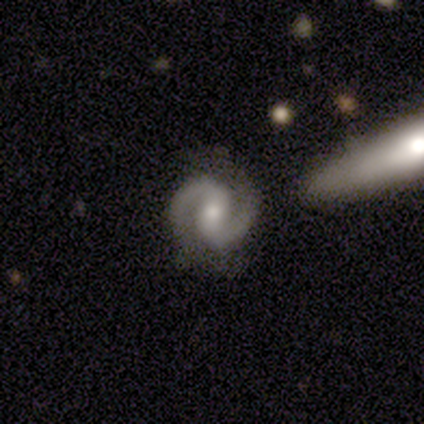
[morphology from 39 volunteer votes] Smooth or featured?
  - featured or disk: 97% *
  - star or artifact: 3%
  - smooth: 0%
Edge-on disk?
  - no: 97% *
  - yes: 3%
Bar?
  - weak: 38% *
  - strong: 32%
  - no: 30%
Spiral arms?
  - yes: 100% *
  - no: 0%
Spiral winding?
  - medium: 49% *
  - tight: 41%
  - loose: 11%
Spiral arm count?
  - 2: 100% *
  - 1: 0%
  - 3: 0%
  - 4: 0%
  - more than 4: 0%
  - can't tell: 0%
Bulge size?
  - small: 54% *
  - moderate: 38%
  - dominant: 3%
  - large: 3%
  - none: 3%
Merging?
  - none: 84% *
  - minor disturbance: 11%
  - major disturbance: 3%
  - merger: 3%